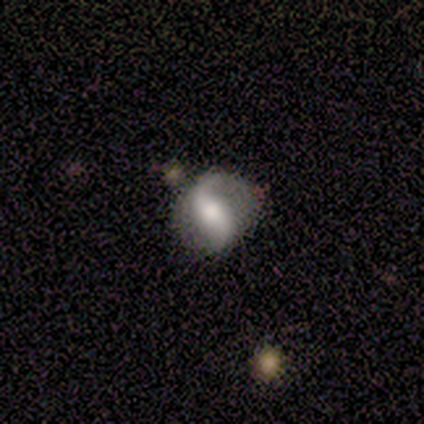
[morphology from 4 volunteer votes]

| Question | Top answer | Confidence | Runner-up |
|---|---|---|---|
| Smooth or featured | featured or disk | 100% | — |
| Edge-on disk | no | 100% | — |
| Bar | no | 50% | strong (25%) |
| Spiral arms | yes | 100% | — |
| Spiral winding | loose | 100% | — |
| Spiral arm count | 2 | 100% | — |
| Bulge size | moderate | 75% | large (25%) |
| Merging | none | 75% | minor disturbance (25%) |